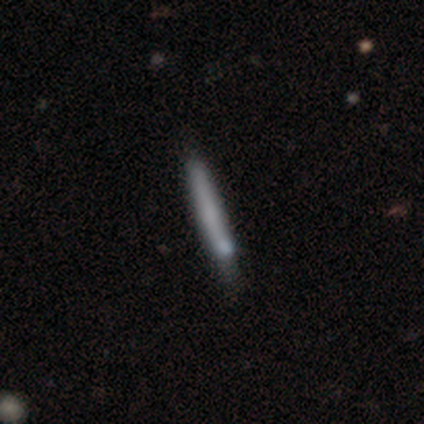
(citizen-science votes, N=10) smooth_or_featured: smooth (p=0.60) [alt: featured or disk p=0.30]
how_rounded: cigar-shaped (p=1.00)
merging: none (p=0.89) [alt: minor disturbance p=0.11]